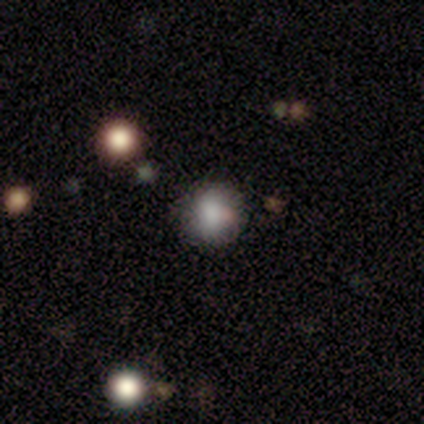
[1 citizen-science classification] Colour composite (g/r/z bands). It shows a smooth galaxy with no disk features (100%) that is round (100%). Merging: none (100%).